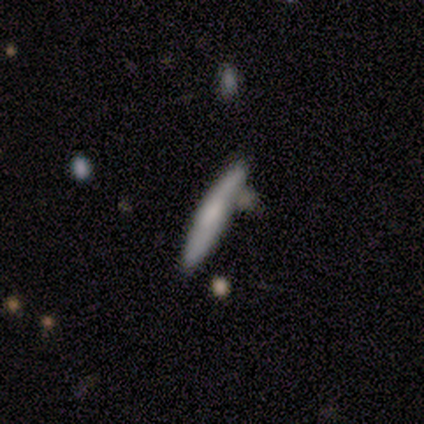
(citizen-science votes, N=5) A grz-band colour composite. It shows a smooth galaxy with no disk features (60%) that is cigar-shaped (100%). Merging: none (75%).